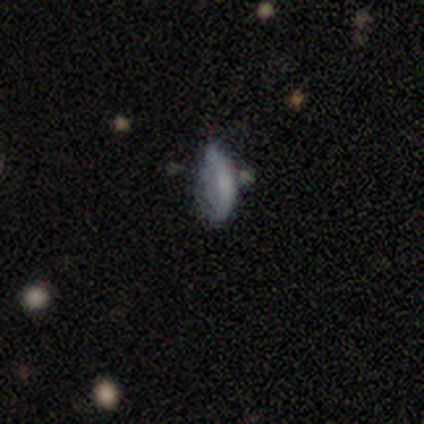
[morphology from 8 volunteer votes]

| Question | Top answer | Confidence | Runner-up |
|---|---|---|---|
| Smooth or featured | smooth | 62% | star or artifact (38%) |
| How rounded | in between | 60% | cigar-shaped (40%) |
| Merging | minor disturbance | 60% | none (20%) |